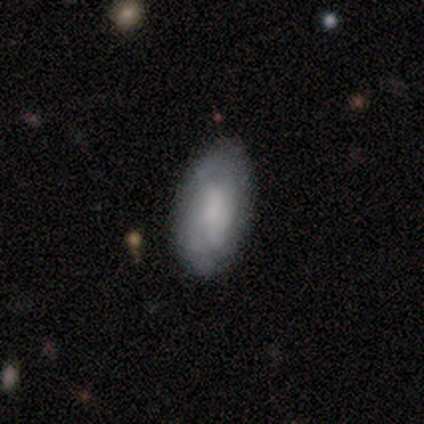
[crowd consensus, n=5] Smooth or featured? 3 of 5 (60%) said featured or disk. Edge-on disk? 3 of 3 (100%) said no. Bar? 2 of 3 (67%) said weak. Spiral arms? 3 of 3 (100%) said yes. Spiral winding? 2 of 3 (67%) said medium. Spiral arm count? 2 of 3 (67%) said can't tell. Bulge size? 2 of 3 (67%) said moderate. Merging? 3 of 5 (60%) said none.